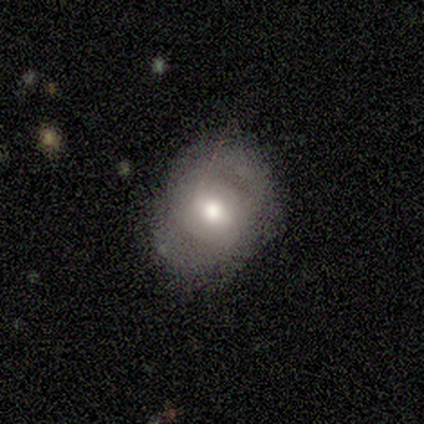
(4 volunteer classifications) smooth-or-featured: featured or disk: 75% | smooth: 25% | star or artifact: 0%
  disk-edge-on: no: 100% | yes: 0%
    bar: no: 67% | weak: 33% | strong: 0%
    has-spiral-arms: yes: 67% | no: 33%
      spiral-winding: tight: 50% (tied) | medium: 50% (tied) | loose: 0%
      spiral-arm-count: 2: 100% | 1: 0% | 3: 0% | 4: 0% | more than 4: 0% | can't tell: 0%
    bulge-size: small: 67% | moderate: 33% | dominant: 0% | large: 0% | none: 0%
  merging: none: 100% | minor disturbance: 0% | major disturbance: 0% | merger: 0%